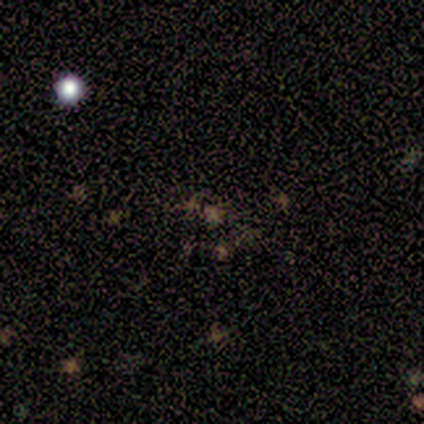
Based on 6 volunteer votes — Smooth or featured? star or artifact (67%)